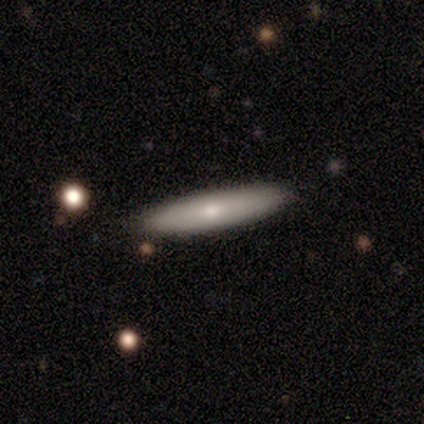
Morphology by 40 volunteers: type=smooth (70%); roundness=cigar-shaped (86%); merging=none (88%).